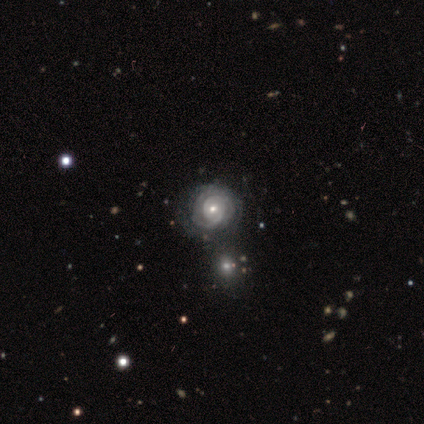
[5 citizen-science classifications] Smooth or featured: featured or disk — 100%
Edge-on disk: no — 100%
Bar: no — 100%
Spiral arms: yes — 80% (no — 20%)
Spiral winding: tight — 75% (medium — 25%)
Spiral arm count: can't tell — 75% (3 — 25%)
Bulge size: moderate — 60% (small — 40%)
Merging: none — 80% (merger — 20%)